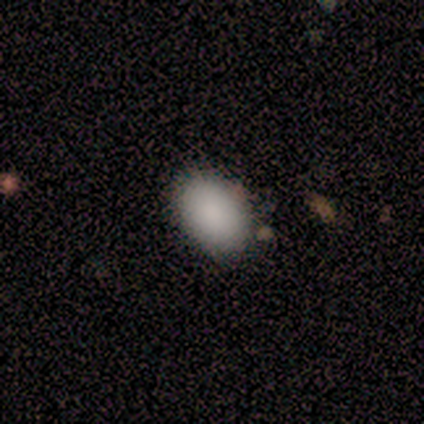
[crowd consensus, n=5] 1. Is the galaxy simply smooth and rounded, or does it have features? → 100% smooth, 0% featured or disk, 0% star or artifact.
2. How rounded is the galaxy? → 80% in between, 20% round, 0% cigar-shaped.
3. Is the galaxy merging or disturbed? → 100% none, 0% minor disturbance, 0% major disturbance, 0% merger.